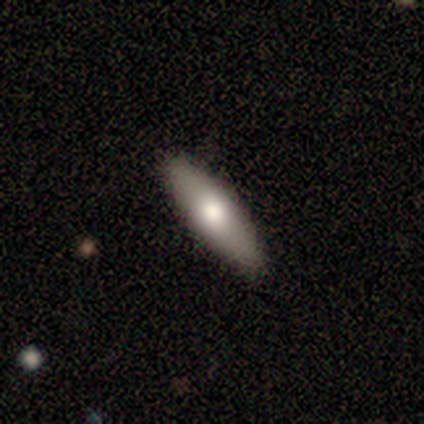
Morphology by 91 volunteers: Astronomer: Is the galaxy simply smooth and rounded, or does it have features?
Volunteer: smooth — 68%.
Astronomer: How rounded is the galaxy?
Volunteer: cigar-shaped — 61% (runner-up: in between, 37%).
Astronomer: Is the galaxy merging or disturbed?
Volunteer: none — 91%.